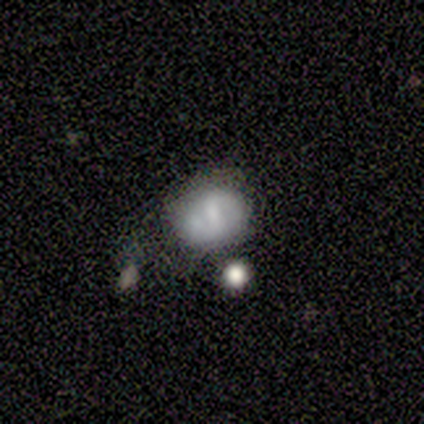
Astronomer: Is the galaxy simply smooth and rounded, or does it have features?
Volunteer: smooth — 60% (runner-up: featured or disk, 40%).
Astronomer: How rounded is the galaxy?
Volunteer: round — 67%.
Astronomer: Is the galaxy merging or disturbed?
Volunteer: none — 40%, tied with merger at 40%.